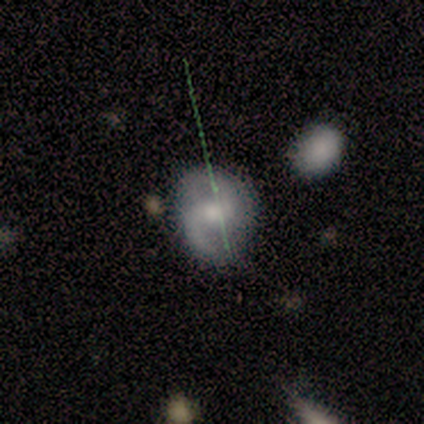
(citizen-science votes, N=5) A featured or disk galaxy (100%) with no bar (80%), 2 (67%) medium (67%) spiral arms (60%) and a moderate central bulge (40%, tied with small).

Vote fractions:
- Smooth or featured? featured or disk: 100% / smooth: 0% / star or artifact: 0%
- Edge-on disk? no: 100% / yes: 0%
- Bar? no: 80% / weak: 20% / strong: 0%
- Spiral arms? yes: 60% / no: 40%
- Spiral winding? medium: 67% / loose: 33% / tight: 0%
- Spiral arm count? 2: 67% / can't tell: 33% / 1: 0% / 3: 0% / 4: 0% / more than 4: 0%
- Bulge size? moderate: 40% (tied) / small: 40% (tied) / large: 20% / dominant: 0% / none: 0%
- Merging? none: 60% / minor disturbance: 20% / major disturbance: 20% / merger: 0%